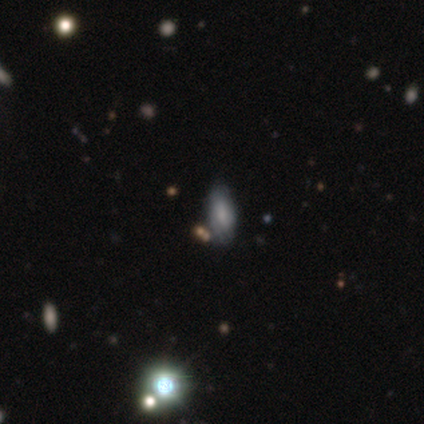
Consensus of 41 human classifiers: Morphology: type=smooth (59%); roundness=in between (96%); merging=none (76%).